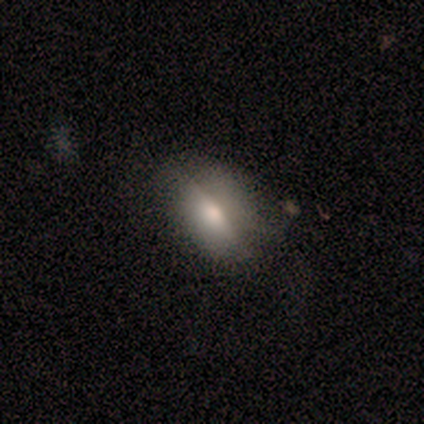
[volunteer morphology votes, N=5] Smooth or featured?
  - smooth: 60% *
  - featured or disk: 40%
  - star or artifact: 0%
How rounded?
  - in between: 100% *
  - round: 0%
  - cigar-shaped: 0%
Merging?
  - none: 80% *
  - minor disturbance: 20%
  - major disturbance: 0%
  - merger: 0%